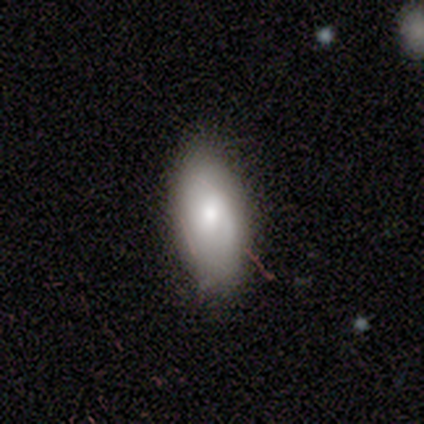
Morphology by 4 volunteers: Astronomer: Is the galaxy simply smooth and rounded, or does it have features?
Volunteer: smooth — 50%, tied with featured or disk at 50%.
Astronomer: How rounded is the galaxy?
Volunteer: in between — 100%.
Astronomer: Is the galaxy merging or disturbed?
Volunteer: none — 75%.